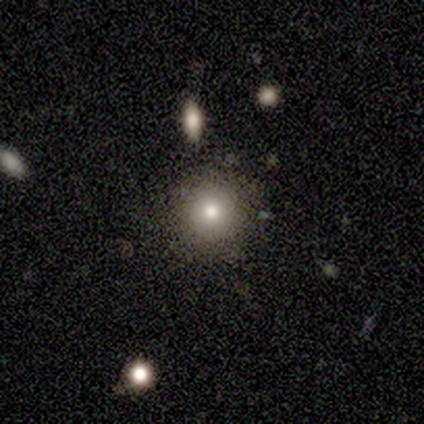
A smooth galaxy with no disk features (60%) that is round (100%). Merging: none (75%).